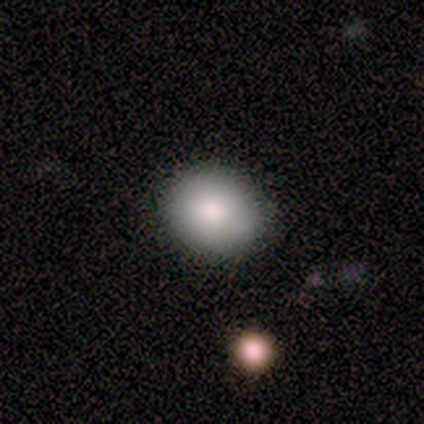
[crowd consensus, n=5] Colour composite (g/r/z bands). It shows a smooth galaxy with no disk features (80%) that is round (75%). Merging: none (100%).